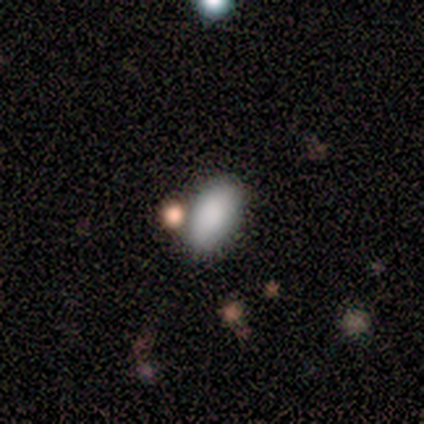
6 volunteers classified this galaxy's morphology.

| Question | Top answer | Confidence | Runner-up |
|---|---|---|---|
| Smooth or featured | smooth | 83% | featured or disk (17%) |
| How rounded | in between | 100% | — |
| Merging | none | 33% | tied: minor disturbance (33%), merger (33%) |